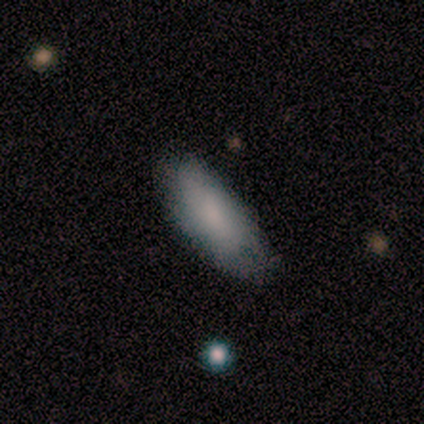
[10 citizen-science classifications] Volunteers were most divided on "smooth or featured": smooth: 50%, featured or disk: 40%, star or artifact: 10%. More confident: how rounded — in between (100%); merging — none (67%).